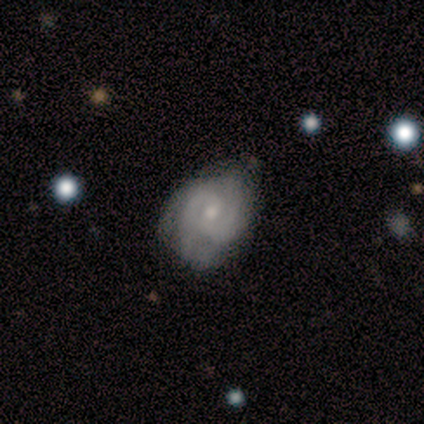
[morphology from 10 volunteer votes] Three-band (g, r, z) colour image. It shows a featured or disk galaxy (70%) with a weak bar (57%), 2 (57%) tight (43%, tied with medium) spiral arms (100%) and a small central bulge (57%). Merging: none (70%).